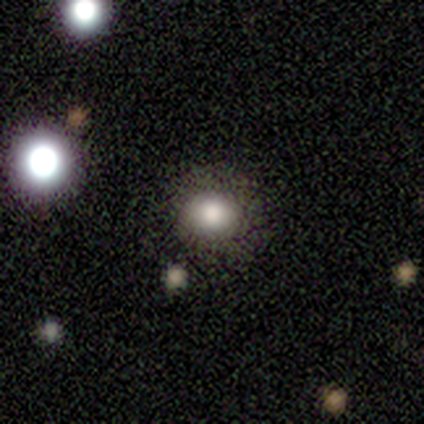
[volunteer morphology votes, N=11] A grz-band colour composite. It shows a smooth galaxy with no disk features (91%) that is round (80%). Merging: none (73%).